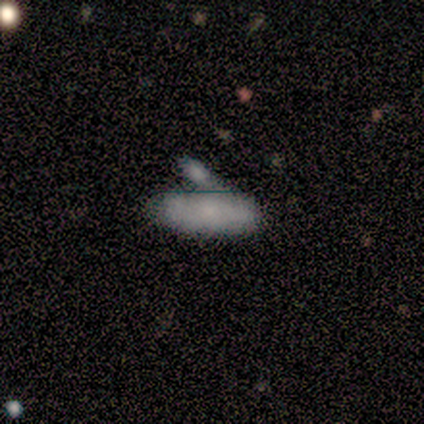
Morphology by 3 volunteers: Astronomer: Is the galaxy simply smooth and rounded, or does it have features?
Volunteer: smooth — 100%.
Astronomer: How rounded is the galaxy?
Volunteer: in between — 100%.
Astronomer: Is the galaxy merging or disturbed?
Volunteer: merger — 100%.